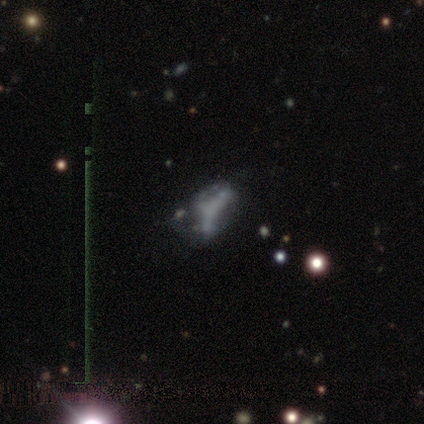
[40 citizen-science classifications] Q: Smooth or featured?
A: featured or disk (60%); runner-up: star or artifact (22%)
Q: Edge-on disk?
A: no (100%)
Q: Bar?
A: no (83%); runner-up: strong (8%)
Q: Spiral arms?
A: no (79%); runner-up: yes (21%)
Q: Bulge size?
A: none (88%); runner-up: moderate (8%)
Q: Merging?
A: major disturbance (32%); runner-up: none (29%)